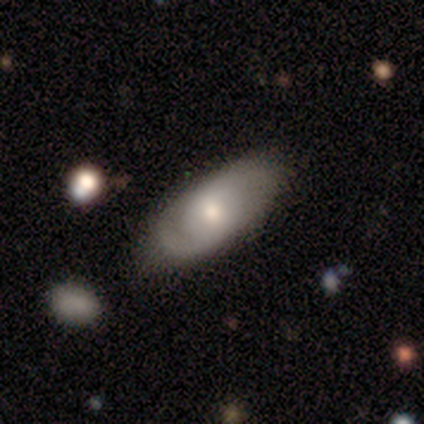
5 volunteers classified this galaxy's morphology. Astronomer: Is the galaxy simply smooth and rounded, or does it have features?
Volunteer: featured or disk — 60% (runner-up: smooth, 40%).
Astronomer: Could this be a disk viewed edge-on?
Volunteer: no — 100%.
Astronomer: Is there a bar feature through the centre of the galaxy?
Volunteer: no — 67%.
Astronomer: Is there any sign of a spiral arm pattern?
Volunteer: yes — 100%.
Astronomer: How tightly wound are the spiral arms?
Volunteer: medium — 67%.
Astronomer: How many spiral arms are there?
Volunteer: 2 — 100%.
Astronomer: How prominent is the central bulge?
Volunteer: moderate — 67%.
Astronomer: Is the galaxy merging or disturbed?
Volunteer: none — 60% (runner-up: minor disturbance, 40%).